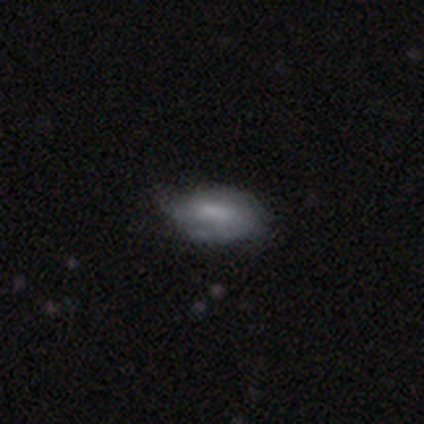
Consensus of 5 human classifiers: Morphology: type=featured or disk (60%); edge-on=no (100%); bar=strong (33%, tied with weak and no); spiral arms=yes (67%); winding=medium (100%); arm count=2 (100%); bulge=none (67%); merging=none (40%, tied with minor disturbance).